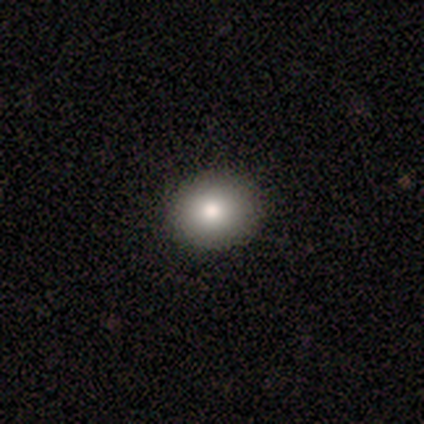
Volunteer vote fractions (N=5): Smooth or featured?
  - smooth: 80% *
  - featured or disk: 20%
  - star or artifact: 0%
How rounded?
  - round: 50% * (tied)
  - in between: 50% * (tied)
  - cigar-shaped: 0%
Merging?
  - none: 100% *
  - minor disturbance: 0%
  - major disturbance: 0%
  - merger: 0%